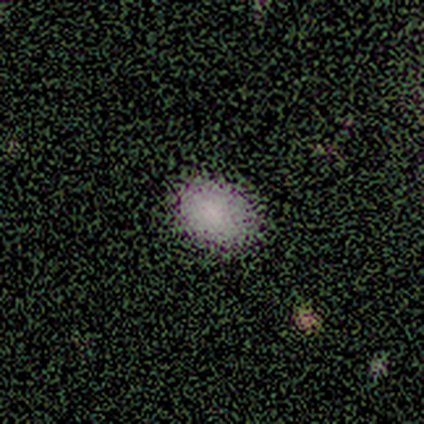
This is clearly a smooth galaxy (91%). How rounded: likely in between (60%). Merging: clearly none (80%).